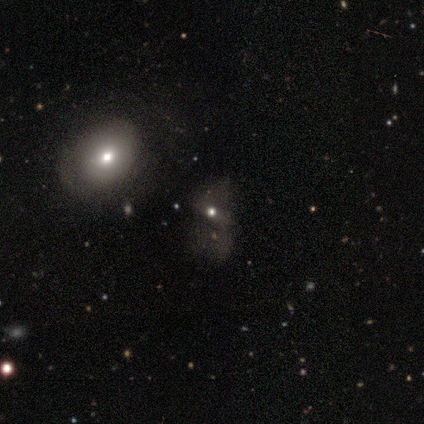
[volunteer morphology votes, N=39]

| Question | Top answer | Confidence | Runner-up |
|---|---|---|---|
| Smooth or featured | featured or disk | 44% | smooth (33%) |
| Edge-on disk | no | 94% | yes (6%) |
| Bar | no | 75% | strong (12%) |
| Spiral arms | no | 81% | yes (19%) |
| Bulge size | moderate | 62% | small (38%) |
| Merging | major disturbance | 57% | none (30%) |